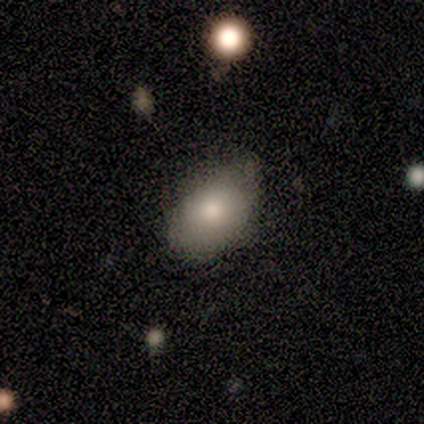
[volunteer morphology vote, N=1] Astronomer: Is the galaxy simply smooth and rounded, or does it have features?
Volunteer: featured or disk — 100%.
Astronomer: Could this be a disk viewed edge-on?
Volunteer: no — 100%.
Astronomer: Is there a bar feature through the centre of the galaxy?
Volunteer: no — 100%.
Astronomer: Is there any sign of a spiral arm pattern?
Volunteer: no — 100%.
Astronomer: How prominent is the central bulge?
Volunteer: moderate — 100%.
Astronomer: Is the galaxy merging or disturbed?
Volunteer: none — 100%.